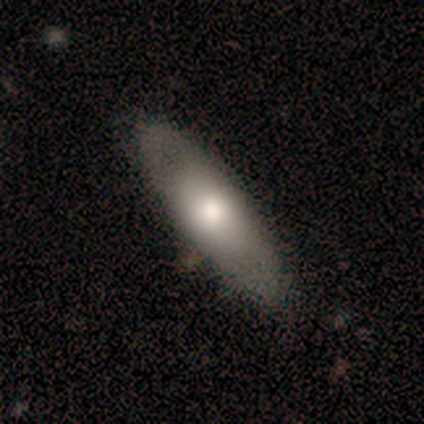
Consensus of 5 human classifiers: Smooth or featured? 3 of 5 (60%) said smooth. How rounded? 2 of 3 (67%) said in between. Merging? 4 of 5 (80%) said none.